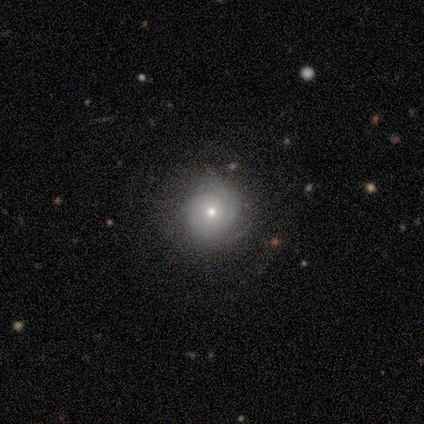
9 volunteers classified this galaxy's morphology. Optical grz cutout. It shows a featured or disk galaxy (67%) with no bar (100%), 2 (60%) tight (100%) spiral arms (83%) and a small central bulge (67%). Merging: none (78%).